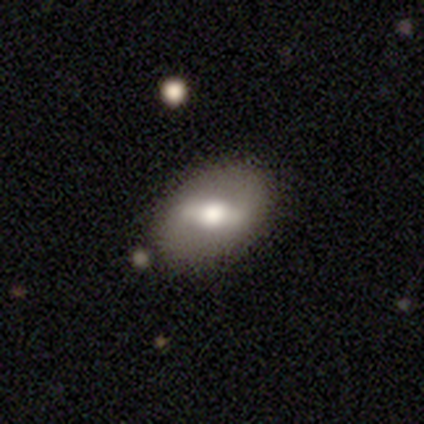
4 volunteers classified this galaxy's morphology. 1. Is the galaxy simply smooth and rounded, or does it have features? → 50% featured or disk (tied), 50% star or artifact (tied), 0% smooth.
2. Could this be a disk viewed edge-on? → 100% no, 0% yes.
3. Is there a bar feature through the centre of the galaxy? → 50% strong (tied), 50% weak (tied), 0% no.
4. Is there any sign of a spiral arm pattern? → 50% yes (tied), 50% no (tied).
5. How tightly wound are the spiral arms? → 100% tight, 0% medium, 0% loose.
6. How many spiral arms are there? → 100% 2, 0% 1, 0% 3, 0% 4, 0% more than 4, 0% can't tell.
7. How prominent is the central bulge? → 100% moderate, 0% dominant, 0% large, 0% small, 0% none.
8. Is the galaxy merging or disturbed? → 50% none (tied), 50% merger (tied), 0% minor disturbance, 0% major disturbance.